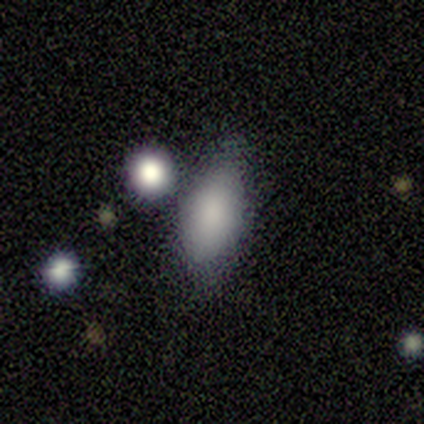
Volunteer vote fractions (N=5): smooth 60%, star or artifact 40%, featured or disk 0%. Down the decision tree: how rounded — in between (100%); merging — minor disturbance (67%).